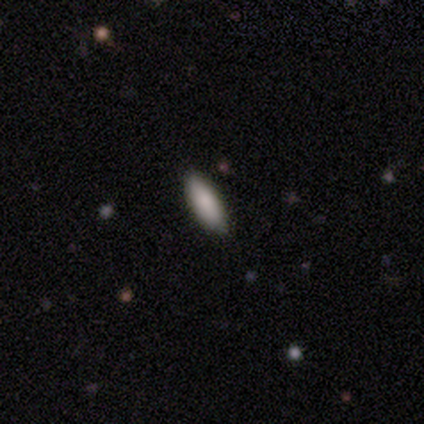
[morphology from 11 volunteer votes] smooth 91%, featured or disk 9%, star or artifact 0%. Down the decision tree: how rounded — in between (70%); merging — none (91%).